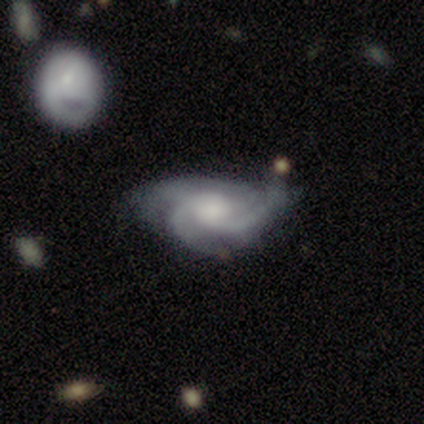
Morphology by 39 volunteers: A featured or disk galaxy (87%) with no bar (64%), 3 (59%) medium (56%) spiral arms (97%) and a moderate central bulge (48%). Merging: none (54%).